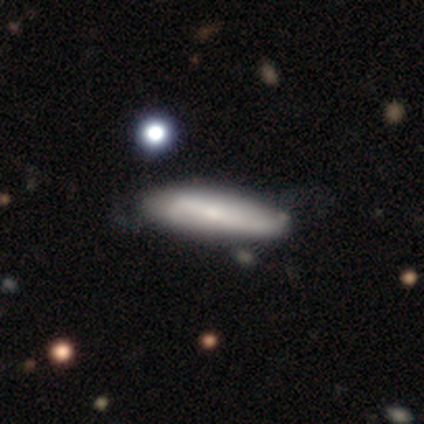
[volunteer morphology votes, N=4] This appears to be a smooth galaxy with no disk features (75%) that is cigar-shaped (100%). Merging: none (67%).